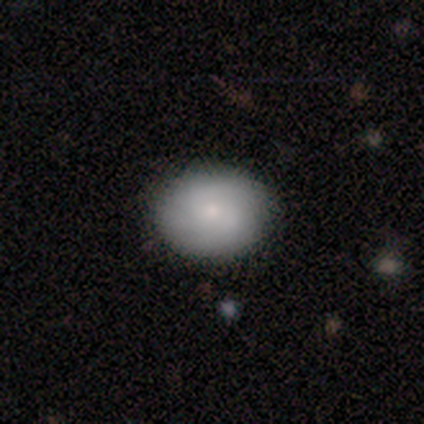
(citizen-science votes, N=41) Smooth or featured: smooth — 83% (featured or disk — 15%)
How rounded: round — 47% (in between — 44%)
Merging: none — 88% (minor disturbance — 10%)